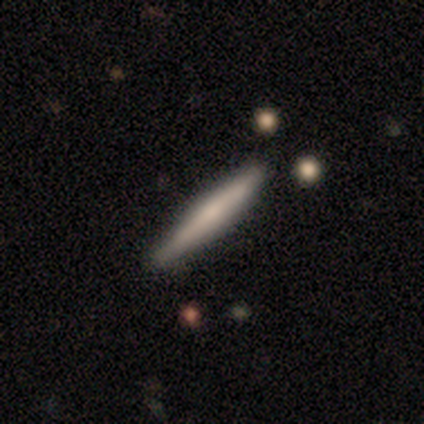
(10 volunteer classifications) smooth 60%, featured or disk 40%, star or artifact 0%. Down the decision tree: how rounded — cigar-shaped (100%); merging — none (70%).